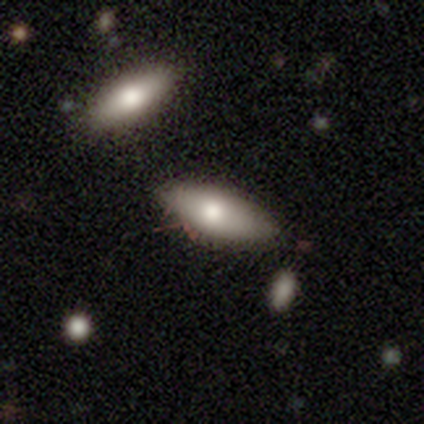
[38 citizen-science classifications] Overall: smooth (68%). How rounded: in between (54%; cigar-shaped 46%). Merging: none (67%).